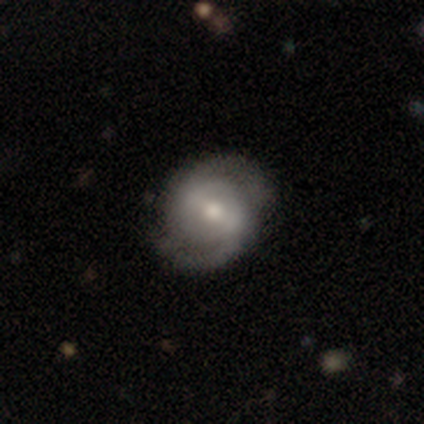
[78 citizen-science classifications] Smooth or featured: featured or disk — 83% (smooth — 17%)
Edge-on disk: no — 97% (yes — 3%)
Bar: weak — 56% (strong — 25%)
Spiral arms: yes — 94% (no — 6%)
Spiral winding: tight — 42% (medium — 41%)
Spiral arm count: 2 — 90% (can't tell — 8%)
Bulge size: moderate — 60% (small — 30%)
Merging: none — 42% (minor disturbance — 12%)